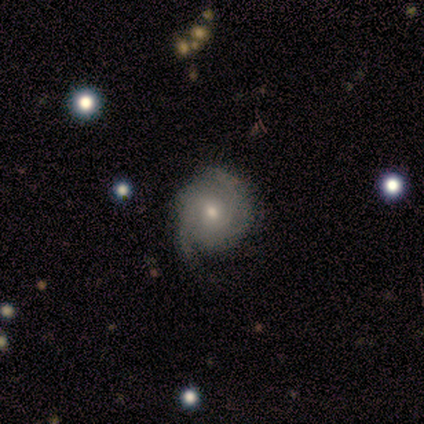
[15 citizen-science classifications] Morphology: type=featured or disk (87%); edge-on=no (100%); bar=no (85%); spiral arms=yes (100%); winding=tight (62%); arm count=2 (54%); bulge=moderate (62%); merging=minor disturbance (53%).